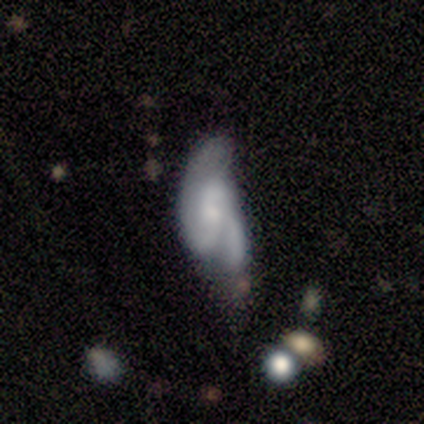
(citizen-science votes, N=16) featured or disk 62%, smooth 38%, star or artifact 0%. Down the decision tree: edge-on disk — no (90%); bar — no (56%); spiral arms — yes (78%); spiral arm count — 2 (71%); spiral winding — medium (43%, tied with loose); bulge size — small (56%); merging — major disturbance (56%).